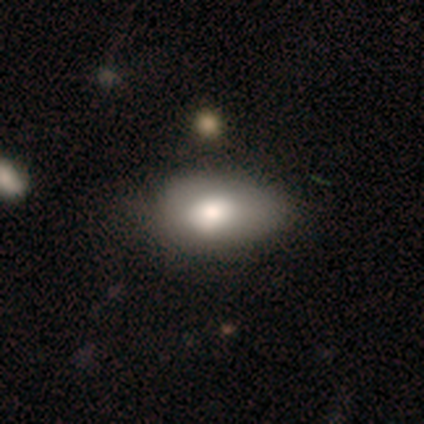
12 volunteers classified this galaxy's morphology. A smooth galaxy with no disk features (75%) that is in between round and cigar-shaped (78%).

Vote fractions:
- Smooth or featured? smooth: 75% / featured or disk: 25% / star or artifact: 0%
- How rounded? in between: 78% / round: 22% / cigar-shaped: 0%
- Merging? none: 50% / minor disturbance: 33% / major disturbance: 17% / merger: 0%